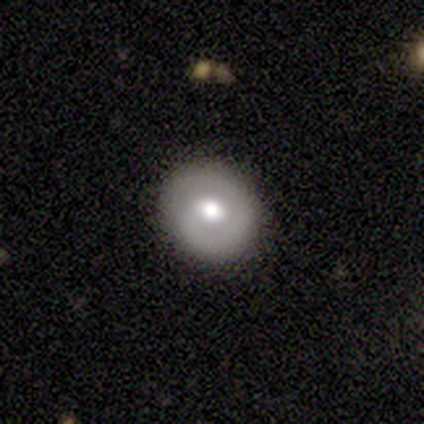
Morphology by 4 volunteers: Q: Smooth or featured?
A: featured or disk (75%); runner-up: smooth (25%)
Q: Edge-on disk?
A: no (100%)
Q: Bar?
A: weak (100%)
Q: Spiral arms?
A: yes (100%)
Q: Spiral winding?
A: tight (67%); runner-up: medium (33%)
Q: Spiral arm count?
A: 1 (67%); runner-up: 2 (33%)
Q: Bulge size?
A: moderate (67%); runner-up: large (33%)
Q: Merging?
A: none (75%); runner-up: minor disturbance (25%)